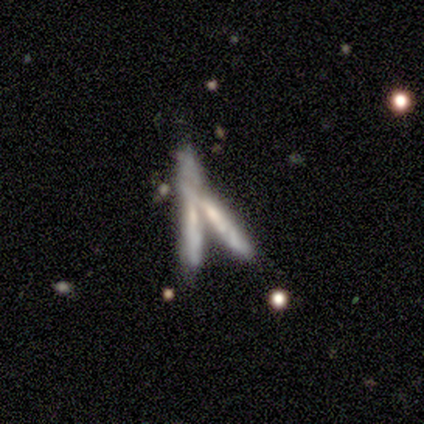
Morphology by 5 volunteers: A featured or disk galaxy (60%) viewed edge-on (100%) with a rounded central bulge (67%). Merging: merger (80%).